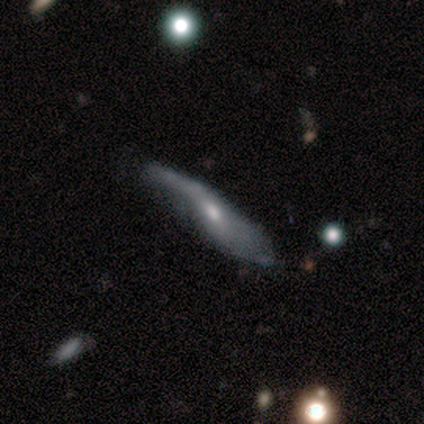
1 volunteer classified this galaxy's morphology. Q: Smooth or featured?
A: smooth (100%)
Q: How rounded?
A: in between (100%)
Q: Merging?
A: minor disturbance (100%)